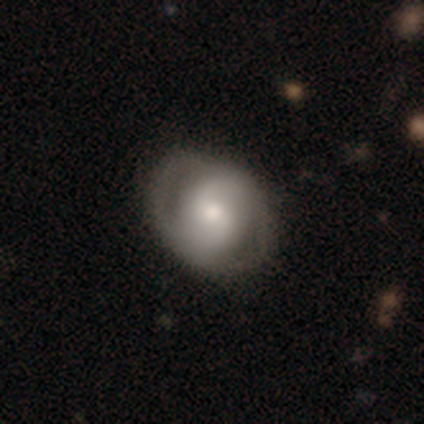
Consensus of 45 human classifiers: This appears to be a featured or disk galaxy (60%) with no bar (46%), 2 (89%) medium (42%) spiral arms (73%) and a moderate central bulge (54%). Merging: none (78%).